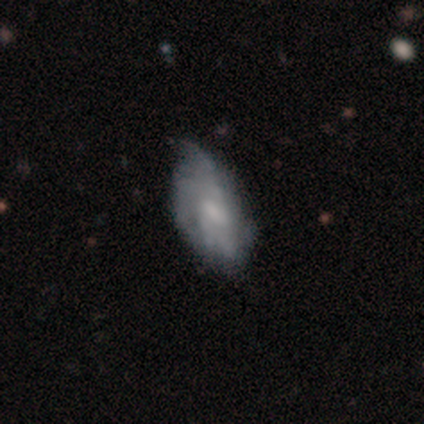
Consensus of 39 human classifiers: Smooth or featured?
  - featured or disk: 59% *
  - smooth: 36%
  - star or artifact: 5%
Edge-on disk?
  - no: 96% *
  - yes: 4%
Bar?
  - no: 55% *
  - weak: 36%
  - strong: 9%
Spiral arms?
  - yes: 50% * (tied)
  - no: 50% * (tied)
Spiral winding?
  - tight: 36% * (tied)
  - loose: 36% * (tied)
  - medium: 27%
Spiral arm count?
  - can't tell: 73% *
  - 3: 18%
  - 2: 9%
  - 1: 0%
  - 4: 0%
  - more than 4: 0%
Bulge size?
  - moderate: 32% * (tied)
  - small: 32% * (tied)
  - none: 32% * (tied)
  - large: 5%
  - dominant: 0%
Merging?
  - minor disturbance: 49% *
  - none: 35%
  - major disturbance: 16%
  - merger: 0%